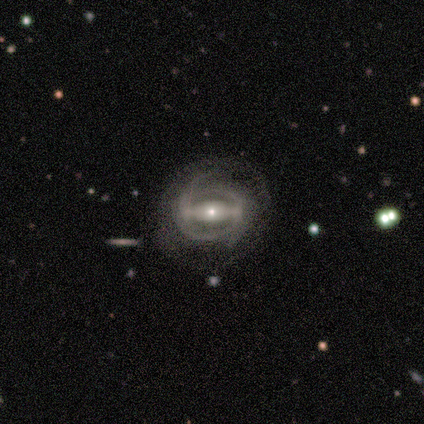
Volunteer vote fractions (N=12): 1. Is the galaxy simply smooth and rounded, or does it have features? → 92% featured or disk, 8% star or artifact, 0% smooth.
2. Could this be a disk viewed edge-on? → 100% no, 0% yes.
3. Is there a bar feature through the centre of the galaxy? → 91% strong, 9% no, 0% weak.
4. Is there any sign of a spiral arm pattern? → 64% yes, 36% no.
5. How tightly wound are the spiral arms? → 57% tight, 29% medium, 14% loose.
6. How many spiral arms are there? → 57% 2, 43% can't tell, 0% 1, 0% 3, 0% 4, 0% more than 4.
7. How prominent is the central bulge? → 64% small, 27% moderate, 9% large, 0% dominant, 0% none.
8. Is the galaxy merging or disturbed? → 73% none, 18% minor disturbance, 9% major disturbance, 0% merger.